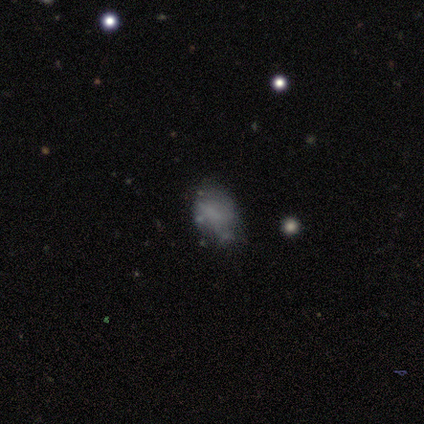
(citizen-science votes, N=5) Smooth or featured? smooth (80%)
How rounded? in between (75%)
Merging? none (60%)